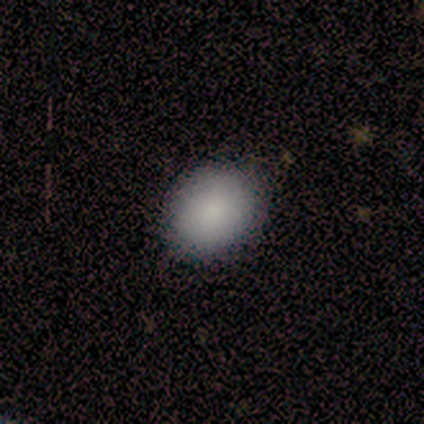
Overall: smooth (100%). How rounded: round (60%; in between 40%). Merging: none (100%).